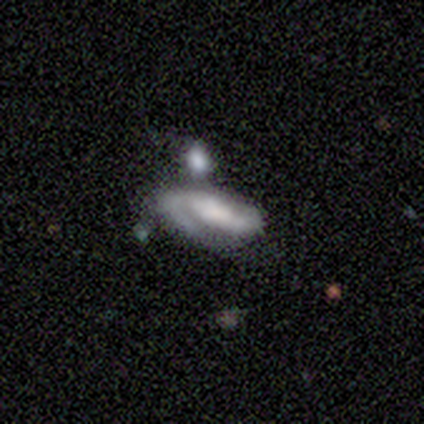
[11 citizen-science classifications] smooth_or_featured: featured or disk (p=0.91) [alt: smooth p=0.09]
disk_edge_on: no (p=1.00)
bar: no (p=0.70) [alt: weak p=0.30]
has_spiral_arms: yes (p=1.00)
spiral_winding: medium (p=0.60) [alt: tight p=0.30]
spiral_arm_count: 2 (p=0.50) [alt: 1 p=0.30]
bulge_size: moderate (p=0.40) [alt: large p=0.20]
merging: none (p=0.55) [alt: merger p=0.45]